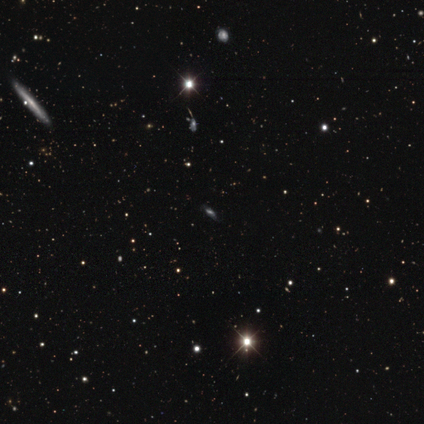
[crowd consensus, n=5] A star or artifact, not a galaxy (80%).

Vote fractions:
- Smooth or featured? star or artifact: 80% / smooth: 20% / featured or disk: 0%